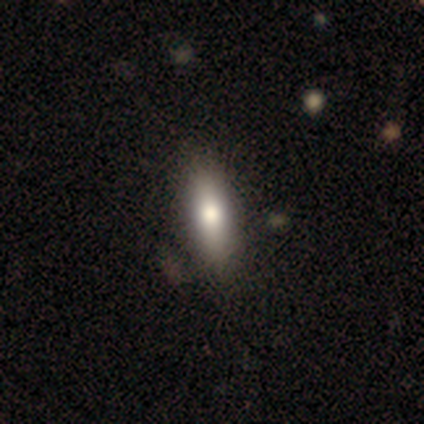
A smooth galaxy with no disk features (75%) that is in between round and cigar-shaped (100%). Merging: none (50%, tied with minor disturbance).